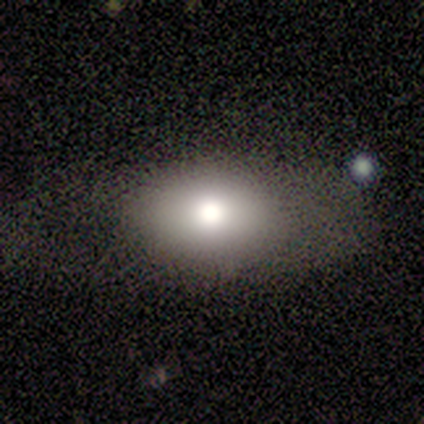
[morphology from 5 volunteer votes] This is clearly a smooth galaxy (100%). How rounded: clearly in between (100%). Merging: clearly none (80%).